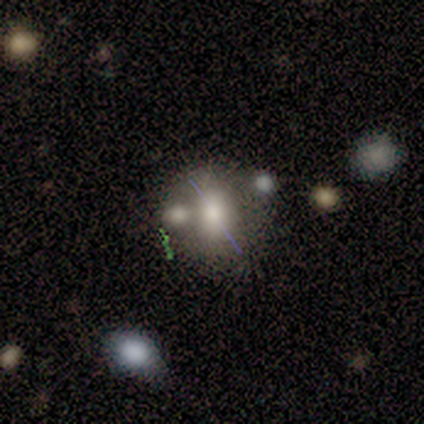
A smooth galaxy with no disk features (50%) that is round (67%).

Vote fractions:
- Smooth or featured? smooth: 50% / star or artifact: 33% / featured or disk: 17%
- How rounded? round: 67% / in between: 33% / cigar-shaped: 0%
- Merging? none: 50% / minor disturbance: 25% / major disturbance: 25% / merger: 0%